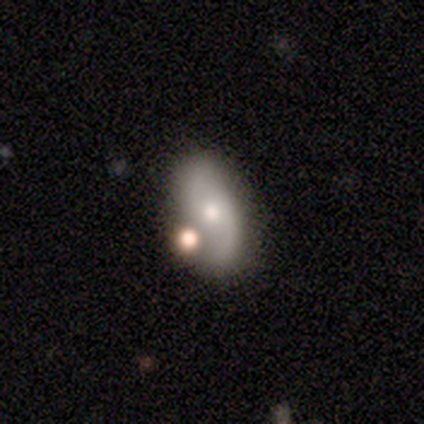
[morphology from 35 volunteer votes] Smooth or featured? 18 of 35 (51%) said featured or disk. Edge-on disk? 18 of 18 (100%) said no. Bar? 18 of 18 (100%) said no. Spiral arms? 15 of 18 (83%) said yes. Spiral winding? 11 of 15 (73%) said loose. Spiral arm count? 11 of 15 (73%) said 2. Bulge size? 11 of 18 (61%) said moderate. Merging? 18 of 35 (51%) said merger.